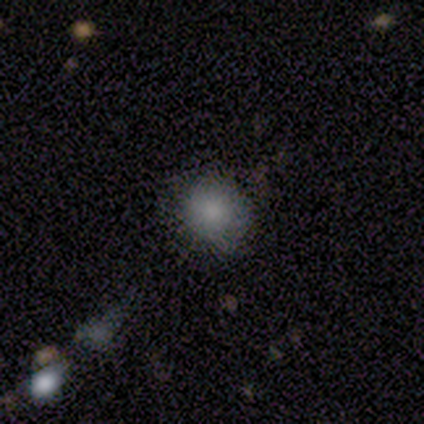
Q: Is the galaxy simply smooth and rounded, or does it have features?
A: smooth — 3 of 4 (75%).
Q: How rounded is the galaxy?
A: round — 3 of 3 (100%).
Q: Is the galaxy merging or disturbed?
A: none — 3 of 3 (100%).